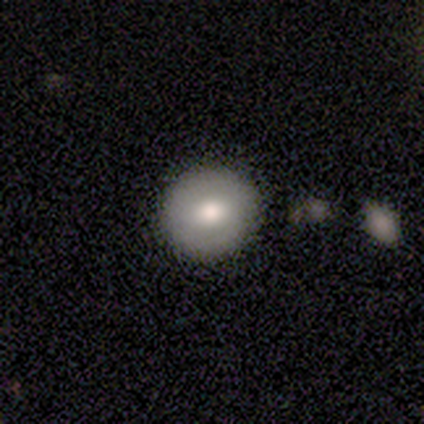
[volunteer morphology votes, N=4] A featured or disk galaxy (75%) with a strong bar (33%, tied with weak and no), no spiral arms (67%) and a moderate central bulge (100%).

Vote fractions:
- Smooth or featured? featured or disk: 75% / smooth: 25% / star or artifact: 0%
- Edge-on disk? no: 100% / yes: 0%
- Bar? strong: 33% (tied) / weak: 33% (tied) / no: 33% (tied)
- Spiral arms? no: 67% / yes: 33%
- Bulge size? moderate: 100% / dominant: 0% / large: 0% / small: 0% / none: 0%
- Merging? none: 100% / minor disturbance: 0% / major disturbance: 0% / merger: 0%